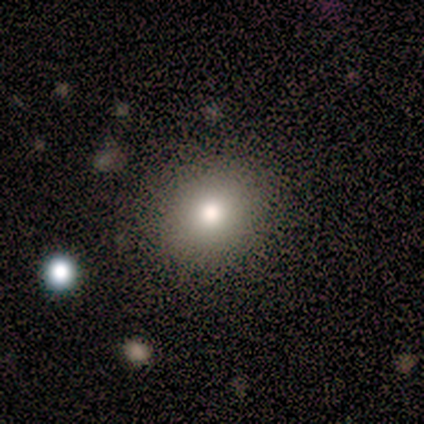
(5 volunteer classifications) Smooth or featured? smooth (60%)
How rounded? round (67%)
Merging? none (75%)